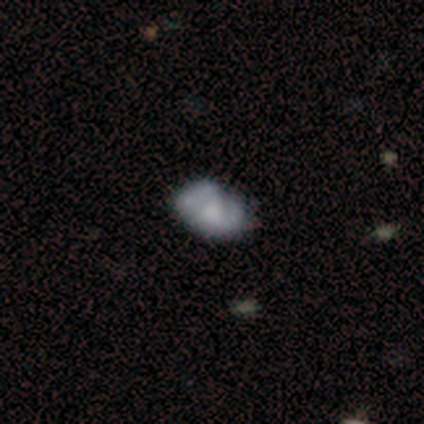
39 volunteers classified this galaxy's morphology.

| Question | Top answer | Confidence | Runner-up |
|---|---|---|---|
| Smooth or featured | featured or disk | 62% | smooth (26%) |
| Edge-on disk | no | 100% | — |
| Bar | no | 79% | weak (17%) |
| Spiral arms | no | 62% | yes (38%) |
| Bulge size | small | 33% | none (21%) |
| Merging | none | 44% | minor disturbance (35%) |